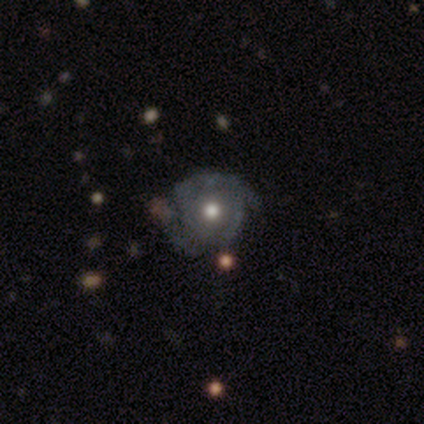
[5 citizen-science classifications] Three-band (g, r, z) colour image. It shows a featured or disk galaxy (100%) with no bar (67%), 4 (50%, tied with can't tell) tight (50%, tied with medium) spiral arms (67%) and a moderate central bulge (100%). Merging: minor disturbance (60%).